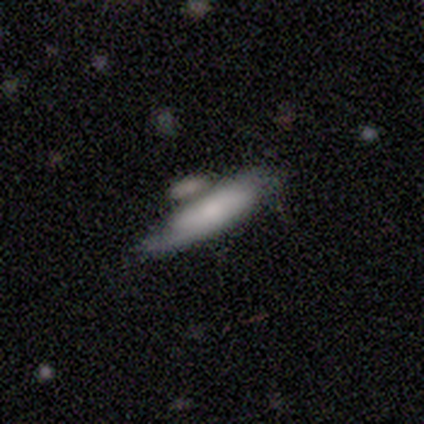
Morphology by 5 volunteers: This appears to be a featured or disk galaxy (60%) with a strong bar (50%, tied with no), 1 (50%, tied with 2) medium (100%) spiral arms (100%) and a small central bulge (100%). Merging: none (40%, tied with minor disturbance).